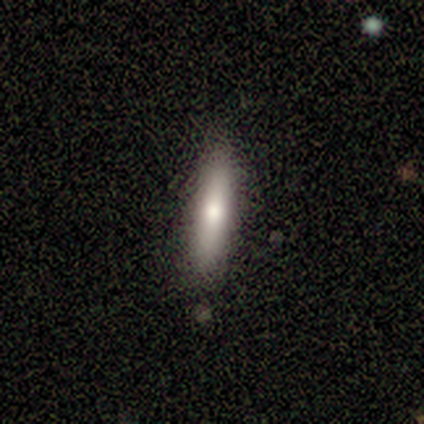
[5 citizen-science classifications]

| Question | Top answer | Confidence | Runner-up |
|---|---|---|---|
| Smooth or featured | featured or disk | 60% | smooth (40%) |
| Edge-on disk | yes | 100% | — |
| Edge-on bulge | none | 67% | rounded (33%) |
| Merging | none | 100% | — |